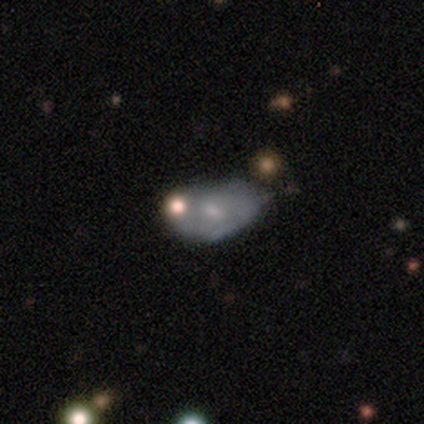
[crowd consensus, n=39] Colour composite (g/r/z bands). It shows a smooth galaxy with no disk features (49%) that is in between round and cigar-shaped (79%). Merging: none (35%).